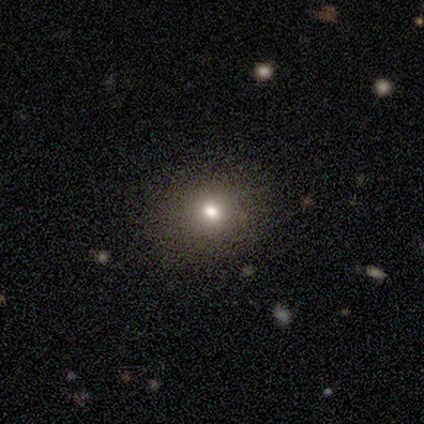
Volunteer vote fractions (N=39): smooth_or_featured: smooth (p=0.59) [alt: star or artifact p=0.36]
how_rounded: round (p=0.87) [alt: in between p=0.13]
merging: none (p=1.00)